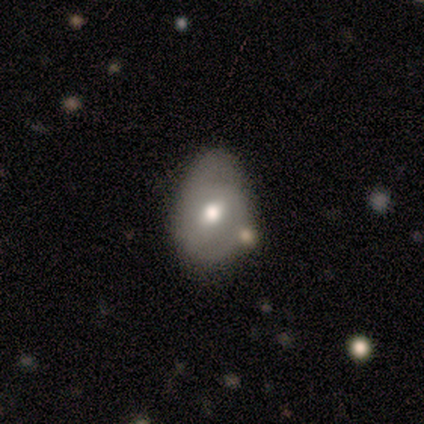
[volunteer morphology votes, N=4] Smooth or featured? featured or disk (100%)
Edge-on disk? no (100%)
Bar? weak (100%)
Spiral arms? yes (50%, tied with no)
Spiral winding? tight (50%, tied with medium)
Spiral arm count? 1 (50%, tied with 2)
Bulge size? moderate (75%)
Merging? minor disturbance (75%)